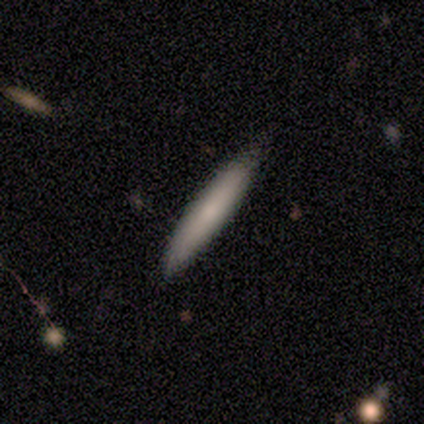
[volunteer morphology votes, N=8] smooth 88%, star or artifact 12%, featured or disk 0%. Down the decision tree: how rounded — cigar-shaped (100%); merging — none (71%).